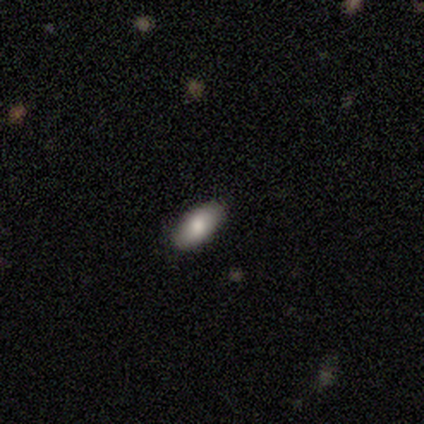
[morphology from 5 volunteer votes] This is clearly a smooth galaxy (100%). How rounded: clearly in between (80%). Merging: clearly none (80%).